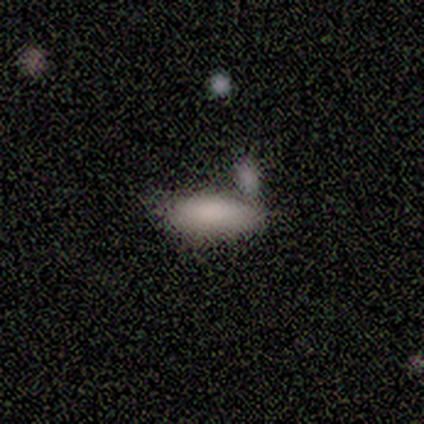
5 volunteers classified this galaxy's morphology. Smooth or featured?
  - smooth: 80% *
  - featured or disk: 20%
  - star or artifact: 0%
How rounded?
  - in between: 75% *
  - cigar-shaped: 25%
  - round: 0%
Merging?
  - minor disturbance: 60% *
  - none: 20%
  - merger: 20%
  - major disturbance: 0%